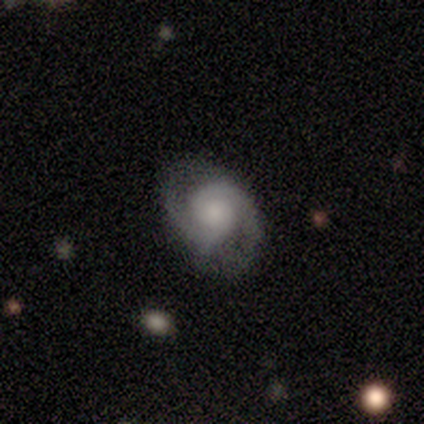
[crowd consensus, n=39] Smooth or featured? 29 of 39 (74%) said featured or disk. Edge-on disk? 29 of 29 (100%) said no. Bar? 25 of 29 (86%) said no. Spiral arms? 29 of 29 (100%) said yes. Spiral winding? 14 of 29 (48%) said tight. Spiral arm count? 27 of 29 (93%) said 2. Bulge size? 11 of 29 (38%) said small. Merging? 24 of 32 (75%) said none.